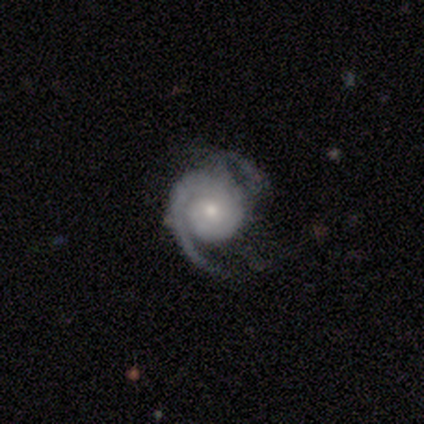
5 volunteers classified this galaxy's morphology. This is clearly a featured or disk galaxy (100%). It is clearly not viewed edge-on (100%). Bar: clearly no (80%). Spiral arm pattern: clearly yes (100%). Spiral arm count: likely 2 (60%). Spiral winding: clearly tight (80%). Central bulge: clearly small (80%). Merging: marginally none (40%, tied with minor disturbance).